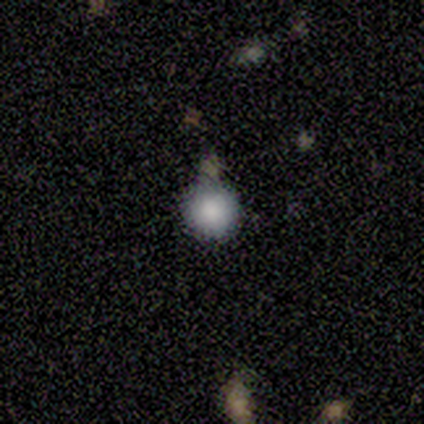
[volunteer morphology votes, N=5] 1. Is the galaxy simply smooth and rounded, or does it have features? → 80% smooth, 20% star or artifact, 0% featured or disk.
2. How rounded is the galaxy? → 100% round, 0% in between, 0% cigar-shaped.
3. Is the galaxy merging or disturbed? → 100% none, 0% minor disturbance, 0% major disturbance, 0% merger.